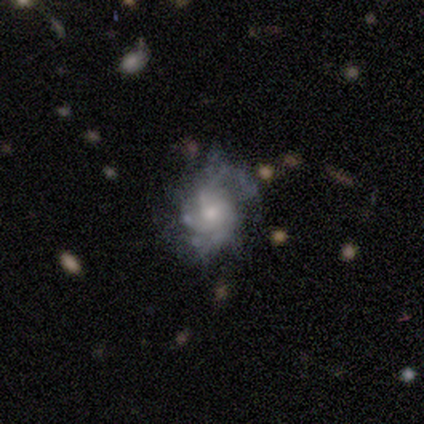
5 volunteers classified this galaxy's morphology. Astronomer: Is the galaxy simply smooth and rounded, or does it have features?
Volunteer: featured or disk — 80%.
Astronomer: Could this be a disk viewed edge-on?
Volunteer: no — 100%.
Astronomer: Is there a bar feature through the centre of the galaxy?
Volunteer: no — 75%.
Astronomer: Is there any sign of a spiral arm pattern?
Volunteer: yes — 100%.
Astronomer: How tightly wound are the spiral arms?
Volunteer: tight — 50%, tied with medium at 50%.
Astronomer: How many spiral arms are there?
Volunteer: can't tell — 50%.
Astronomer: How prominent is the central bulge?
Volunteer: moderate — 75%.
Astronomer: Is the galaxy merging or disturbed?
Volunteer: none — 50%, tied with minor disturbance at 50%.